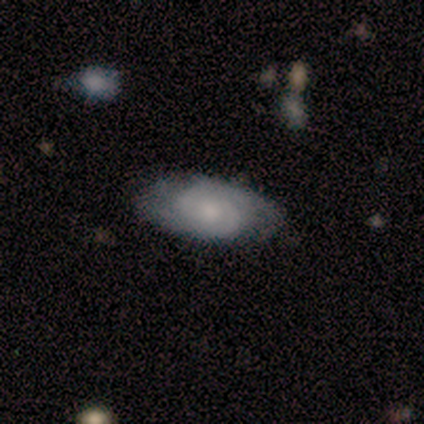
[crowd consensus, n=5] Smooth or featured? smooth (60%)
How rounded? in between (100%)
Merging? none (75%)